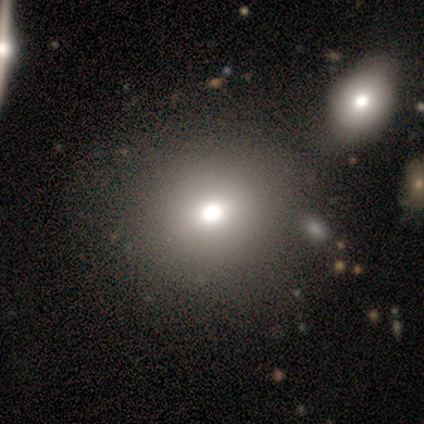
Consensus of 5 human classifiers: Smooth or featured? featured or disk (80%)
Edge-on disk? no (100%)
Bar? no (100%)
Spiral arms? no (100%)
Bulge size? large (50%)
Merging? none (60%)